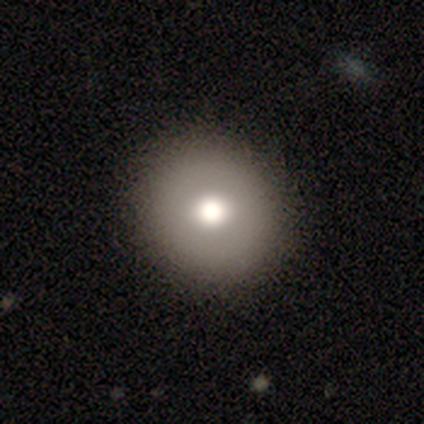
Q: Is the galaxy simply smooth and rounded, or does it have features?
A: smooth — 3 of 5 (60%).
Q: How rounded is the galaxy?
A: round — 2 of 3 (67%).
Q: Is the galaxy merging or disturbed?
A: none — 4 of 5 (80%).